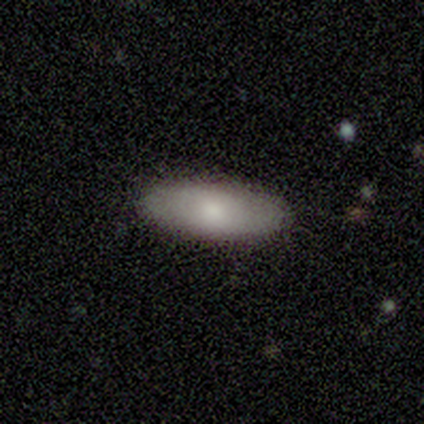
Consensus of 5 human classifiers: Smooth or featured? 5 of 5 (100%) said smooth. How rounded? 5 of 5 (100%) said in between. Merging? 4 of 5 (80%) said none.